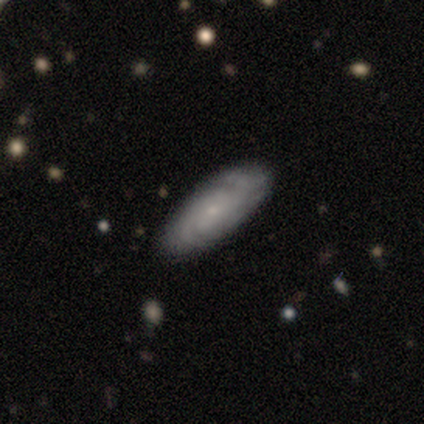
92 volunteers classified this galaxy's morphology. This appears to be a featured or disk galaxy (70%) with no bar (88%), 2 (40%, tied with can't tell) tight (55%) spiral arms (100%) and a small central bulge (90%). Merging: none (88%).